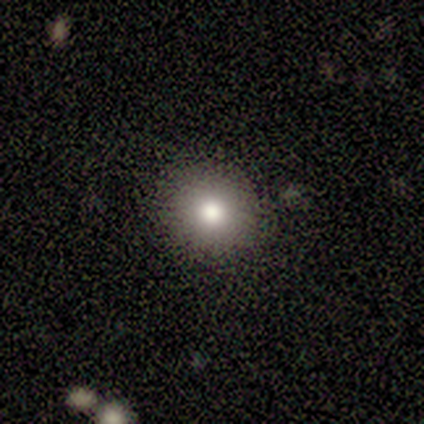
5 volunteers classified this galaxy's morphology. This appears to be a smooth galaxy with no disk features (100%) that is round (100%). Merging: none (100%).